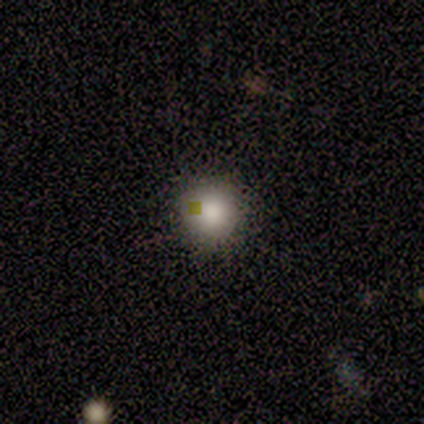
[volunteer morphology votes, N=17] smooth-or-featured: smooth: 94% | featured or disk: 6% | star or artifact: 0%
  how-rounded: round: 94% | in between: 6% | cigar-shaped: 0%
  merging: none: 100% | minor disturbance: 0% | major disturbance: 0% | merger: 0%